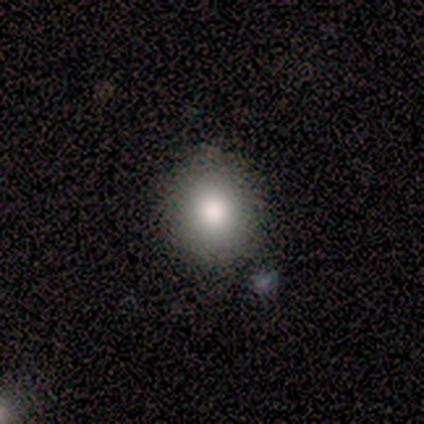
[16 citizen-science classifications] Smooth or featured? smooth (88%)
How rounded? round (79%)
Merging? none (100%)